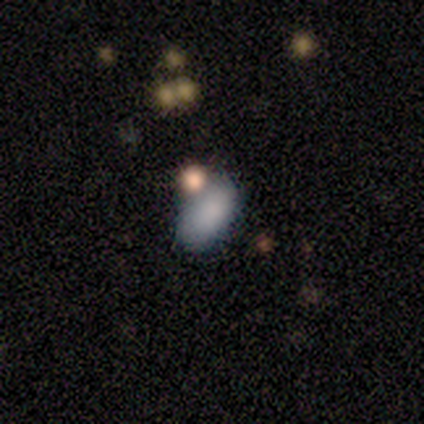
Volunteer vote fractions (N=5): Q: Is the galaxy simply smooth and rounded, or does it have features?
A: smooth — 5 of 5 (100%).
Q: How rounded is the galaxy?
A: in between — 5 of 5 (100%).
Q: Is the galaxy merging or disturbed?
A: none — 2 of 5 (40%).